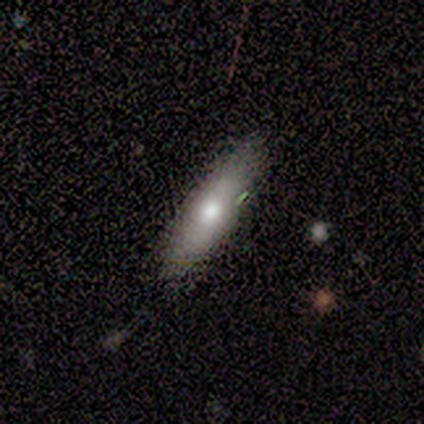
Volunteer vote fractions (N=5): Volunteers were most divided on "smooth or featured": smooth: 60%, featured or disk: 40%, star or artifact: 0%. More confident: how rounded — cigar-shaped (100%); merging — none (100%).